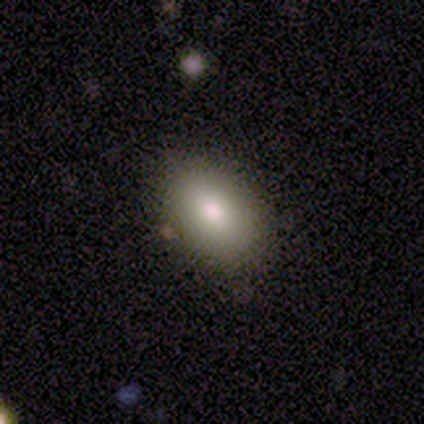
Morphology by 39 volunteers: A smooth galaxy with no disk features (79%) that is in between round and cigar-shaped (94%). Merging: none (94%).